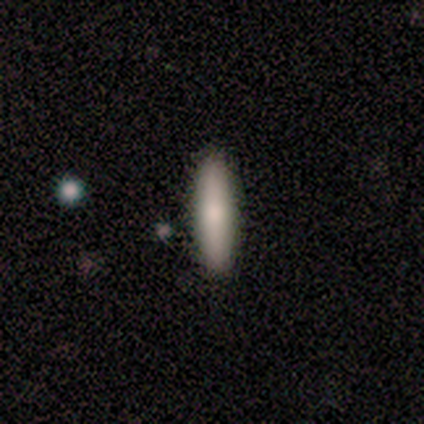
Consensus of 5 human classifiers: Overall: smooth (40%, tied with featured or disk). How rounded: cigar-shaped (100%). Merging: none (100%).